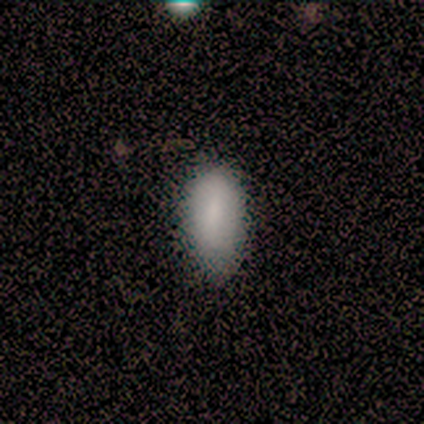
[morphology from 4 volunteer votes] Smooth or featured: smooth — 50% (featured or disk — 25%)
How rounded: in between — 100%
Merging: none — 67% (minor disturbance — 33%)